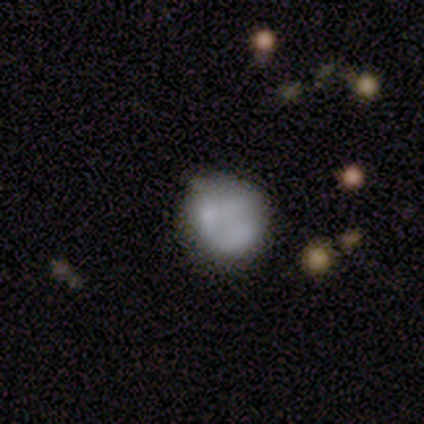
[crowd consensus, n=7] Volunteers were most divided on "merging": none: 43%, minor disturbance: 29%, major disturbance: 29%, merger: 0%. More confident: how rounded — round (100%); smooth or featured — smooth (71%).